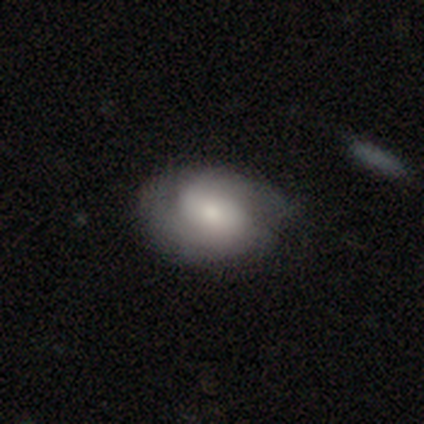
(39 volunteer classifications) Smooth or featured?
  - featured or disk: 54% *
  - smooth: 41%
  - star or artifact: 5%
Edge-on disk?
  - no: 95% *
  - yes: 5%
Bar?
  - no: 65% *
  - weak: 30%
  - strong: 5%
Spiral arms?
  - yes: 95% *
  - no: 5%
Spiral winding?
  - tight: 42% *
  - medium: 37%
  - loose: 21%
Spiral arm count?
  - 2: 84% *
  - can't tell: 11%
  - 3: 5%
  - 1: 0%
  - 4: 0%
  - more than 4: 0%
Bulge size?
  - moderate: 55% *
  - small: 25%
  - large: 10%
  - none: 10%
  - dominant: 0%
Merging?
  - none: 62% *
  - minor disturbance: 19%
  - major disturbance: 3%
  - merger: 3%